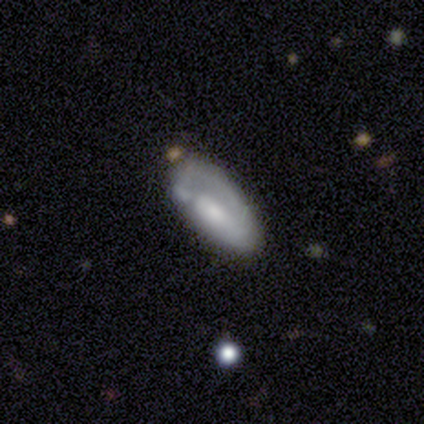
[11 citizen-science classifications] A smooth galaxy with no disk features (73%) that is in between round and cigar-shaped (75%). Merging: none (45%).